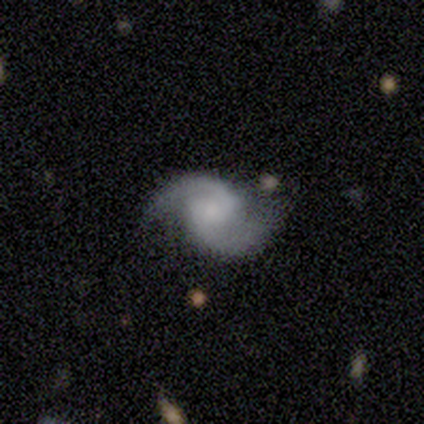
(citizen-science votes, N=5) Q: Smooth or featured?
A: featured or disk (100%)
Q: Edge-on disk?
A: no (100%)
Q: Bar?
A: no (60%); runner-up: weak (40%)
Q: Spiral arms?
A: yes (100%)
Q: Spiral winding?
A: loose (60%); runner-up: medium (40%)
Q: Spiral arm count?
A: 2 (100%)
Q: Bulge size?
A: small (60%); runner-up: moderate (20%)
Q: Merging?
A: none (80%); runner-up: major disturbance (20%)